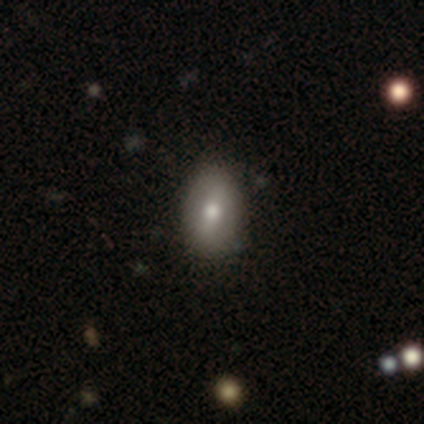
smooth-or-featured: smooth: 80% | star or artifact: 20% | featured or disk: 0%
  how-rounded: in between: 75% | round: 25% | cigar-shaped: 0%
  merging: none: 50% (tied) | minor disturbance: 50% (tied) | major disturbance: 0% | merger: 0%